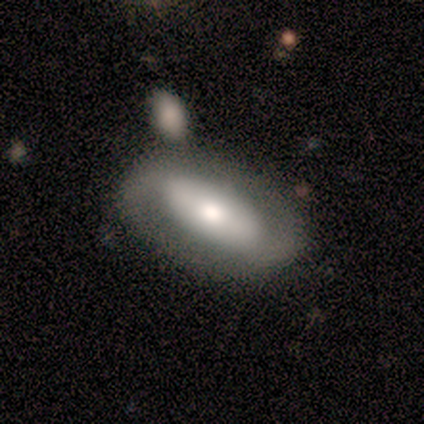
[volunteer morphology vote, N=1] Smooth or featured? featured or disk (100%)
Edge-on disk? no (100%)
Bar? strong (100%)
Spiral arms? yes (100%)
Spiral winding? loose (100%)
Spiral arm count? 2 (100%)
Bulge size? moderate (100%)
Merging? none (100%)